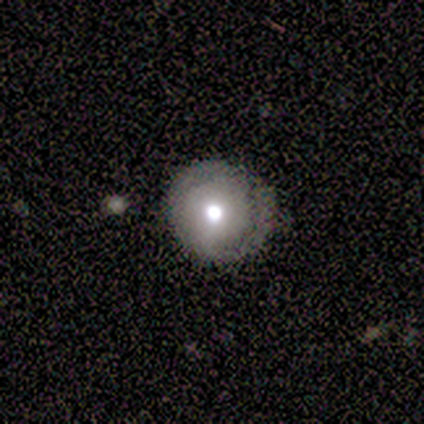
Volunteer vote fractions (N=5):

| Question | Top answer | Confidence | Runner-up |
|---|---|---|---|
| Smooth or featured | smooth | 60% | featured or disk (40%) |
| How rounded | round | 100% | — |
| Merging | none | 80% | major disturbance (20%) |